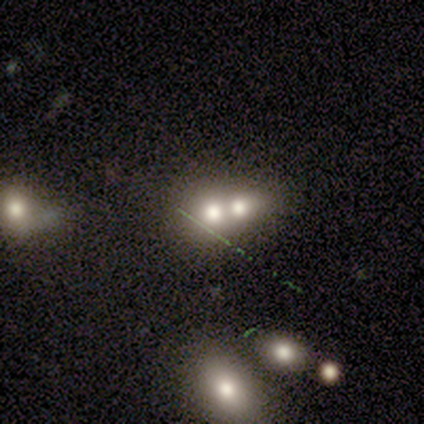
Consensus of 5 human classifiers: smooth-or-featured: smooth: 100% | featured or disk: 0% | star or artifact: 0%
  how-rounded: in between: 60% | round: 40% | cigar-shaped: 0%
  merging: merger: 60% | none: 20% | minor disturbance: 20% | major disturbance: 0%